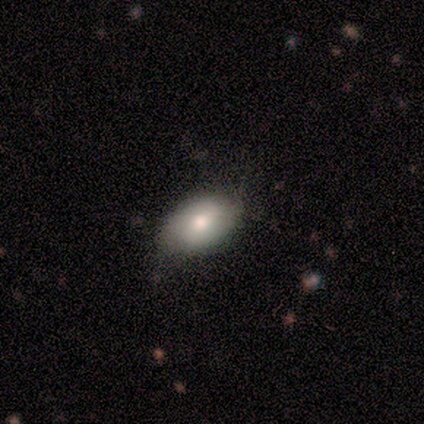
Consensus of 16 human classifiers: smooth-or-featured: smooth: 75% | featured or disk: 25% | star or artifact: 0%
  how-rounded: in between: 75% | round: 25% | cigar-shaped: 0%
  merging: none: 75% | minor disturbance: 19% | major disturbance: 6% | merger: 0%